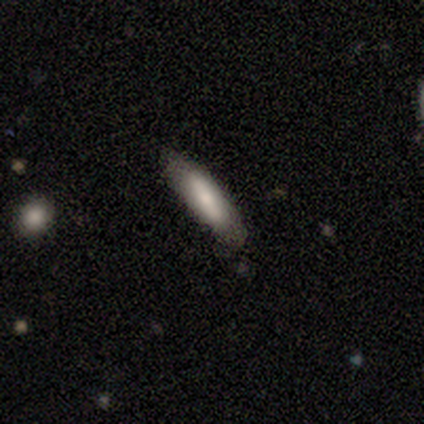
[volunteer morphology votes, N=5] This is clearly a smooth galaxy (80%). How rounded: possibly in between (50%, tied with cigar-shaped). Merging: clearly none (80%).